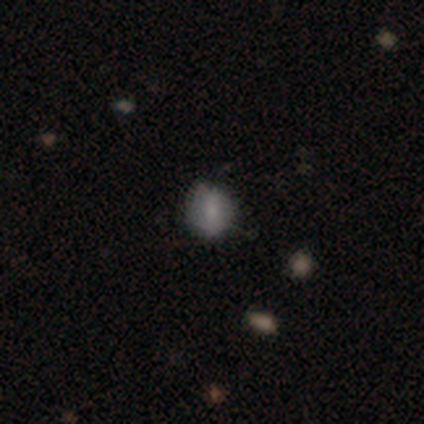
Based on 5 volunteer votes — smooth_or_featured: smooth (p=0.60) [alt: featured or disk p=0.40]
how_rounded: round (p=0.67) [alt: in between p=0.33]
merging: none (p=1.00)